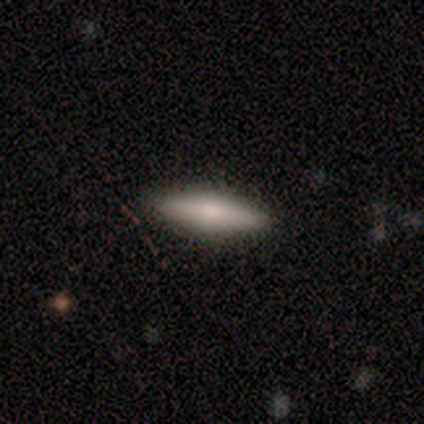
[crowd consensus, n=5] Q: Smooth or featured?
A: smooth (60%); runner-up: featured or disk (20%)
Q: How rounded?
A: cigar-shaped (100%)
Q: Merging?
A: none (100%)